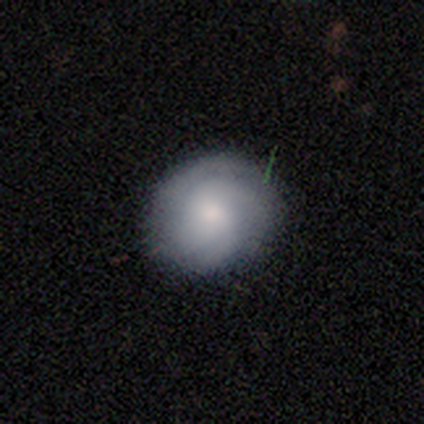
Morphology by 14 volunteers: This appears to be a smooth galaxy with no disk features (50%) that is round (86%). Merging: none (92%).